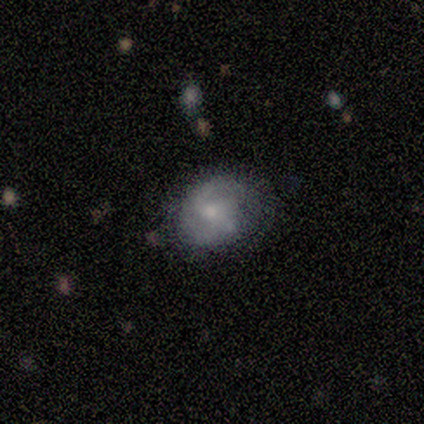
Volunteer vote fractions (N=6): This appears to be a featured or disk galaxy (100%) with a weak bar (67%), 2 (100%) medium (60%) spiral arms (83%) and a moderate central bulge (50%, tied with small). Merging: minor disturbance (50%).